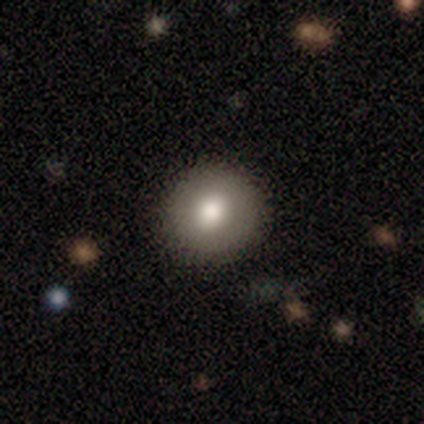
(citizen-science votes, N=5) Smooth or featured: smooth — 80% (featured or disk — 20%)
How rounded: round — 100%
Merging: none — 100%